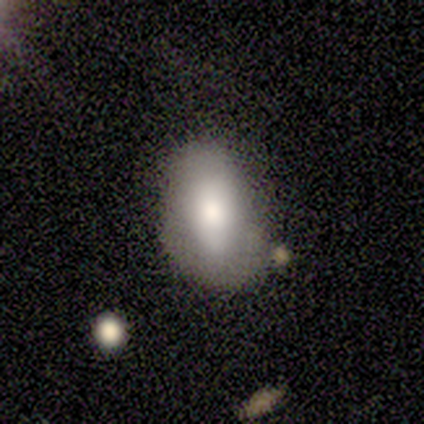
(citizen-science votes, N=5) Overall: smooth (40%, tied with featured or disk). How rounded: round (50%, tied with in between). Merging: none (50%, tied with minor disturbance).